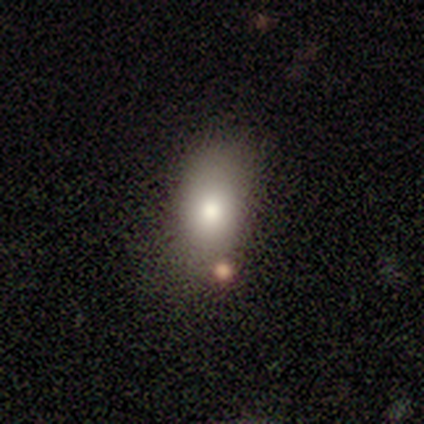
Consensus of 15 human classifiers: smooth_or_featured: smooth (p=0.73) [alt: featured or disk p=0.20]
how_rounded: in between (p=0.91) [alt: round p=0.09]
merging: none (p=0.86) [alt: minor disturbance p=0.14]